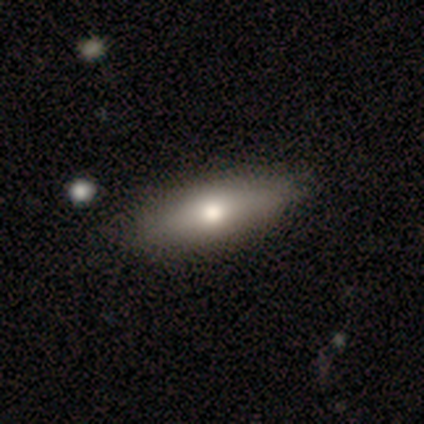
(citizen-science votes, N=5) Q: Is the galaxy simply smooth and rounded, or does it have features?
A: smooth — 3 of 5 (60%).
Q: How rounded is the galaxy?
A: in between — 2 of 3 (67%).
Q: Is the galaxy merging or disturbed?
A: none — 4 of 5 (80%).